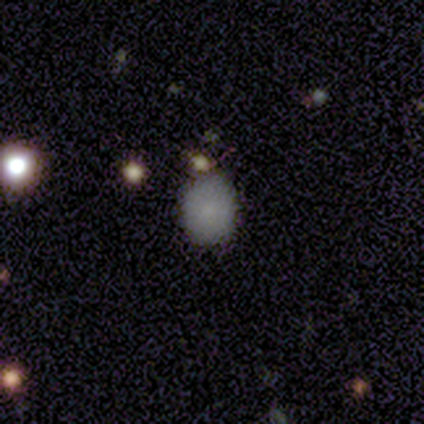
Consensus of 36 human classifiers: This appears to be a smooth galaxy with no disk features (81%) that is round (62%). Merging: none (90%).